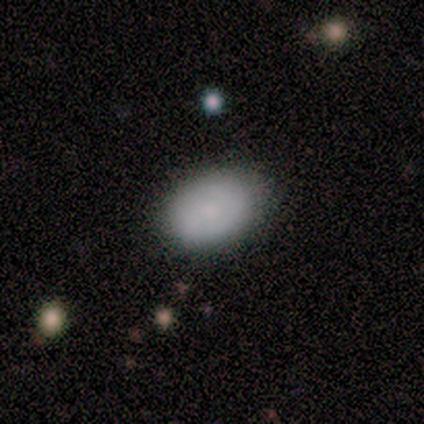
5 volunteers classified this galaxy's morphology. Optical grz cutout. It shows a smooth galaxy with no disk features (60%) that is in between round and cigar-shaped (100%). Merging: none (67%).